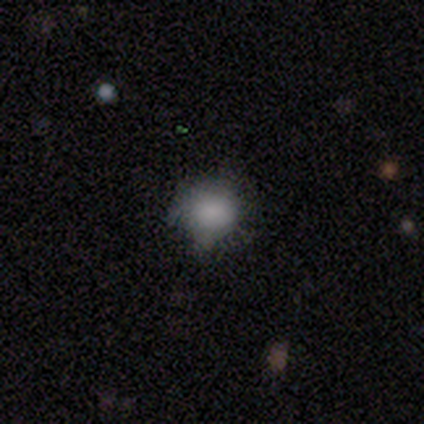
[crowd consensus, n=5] Overall: smooth (80%). How rounded: round (100%). Merging: none (60%; minor disturbance 40%).